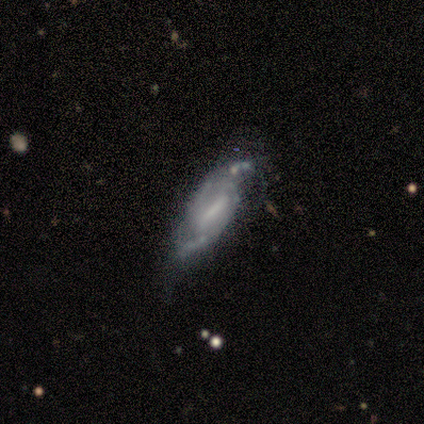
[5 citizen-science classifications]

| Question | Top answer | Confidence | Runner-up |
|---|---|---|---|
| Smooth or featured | featured or disk | 60% | star or artifact (40%) |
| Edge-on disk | no | 67% | yes (33%) |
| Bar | strong | 100% | — |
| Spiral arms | yes | 100% | — |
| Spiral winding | tight | 50% | tied: loose (50%) |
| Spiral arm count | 2 | 50% | tied: can't tell (50%) |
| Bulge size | moderate | 100% | — |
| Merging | minor disturbance | 67% | none (33%) |